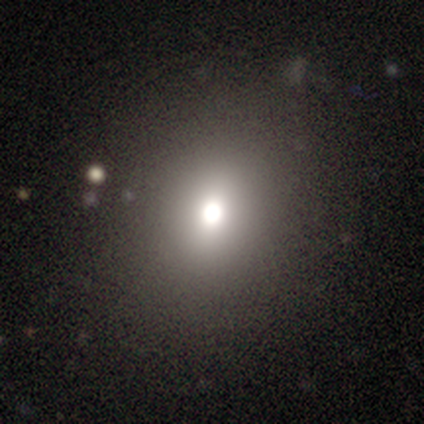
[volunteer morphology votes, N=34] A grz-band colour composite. It shows a smooth galaxy with no disk features (62%) that is round (76%). Merging: none (92%).